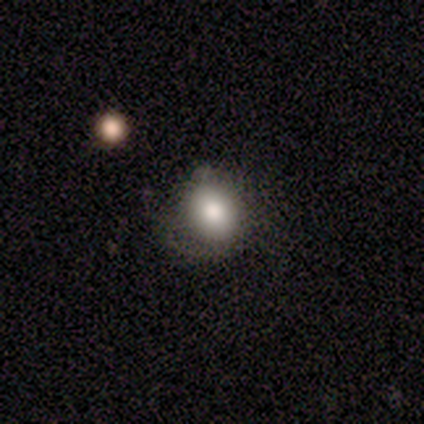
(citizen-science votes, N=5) Overall: smooth (80%). How rounded: round (50%, tied with in between). Merging: none (50%, tied with major disturbance).